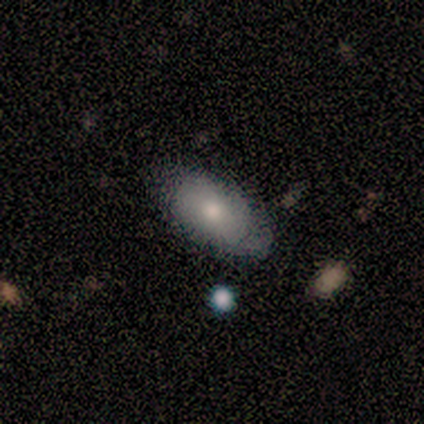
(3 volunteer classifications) Volunteers were most divided on "smooth or featured": smooth: 67%, featured or disk: 33%, star or artifact: 0%. More confident: how rounded — in between (100%); merging — none (100%).